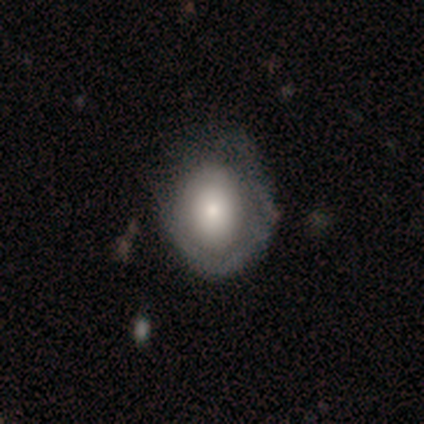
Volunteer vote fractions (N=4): A smooth galaxy with no disk features (50%, tied with featured or disk) that is round (50%, tied with in between). Merging: none (50%, tied with major disturbance).